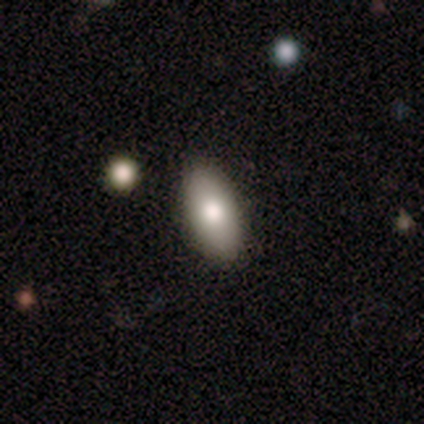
Smooth or featured? smooth (71%)
How rounded? in between (100%)
Merging? none (100%)